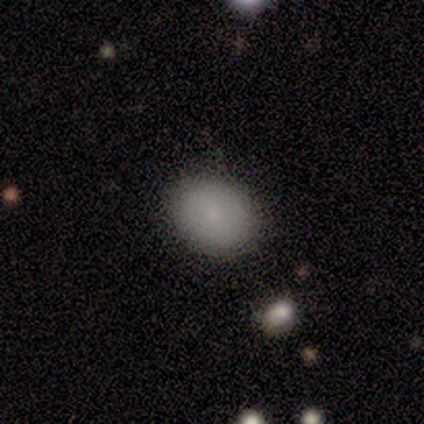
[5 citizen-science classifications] Morphology: type=smooth (100%); roundness=round (60%); merging=none (100%).